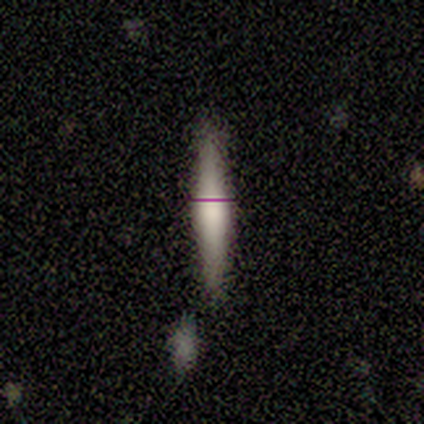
smooth-or-featured: smooth: 67% | featured or disk: 17% | star or artifact: 17%
  how-rounded: cigar-shaped: 100% | round: 0% | in between: 0%
  merging: none: 100% | minor disturbance: 0% | major disturbance: 0% | merger: 0%